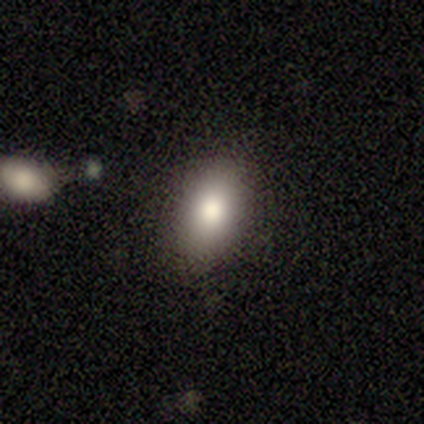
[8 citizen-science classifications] Volunteers were most divided on "smooth or featured": smooth: 75%, featured or disk: 12%, star or artifact: 12%. More confident: how rounded — in between (100%); merging — none (100%).